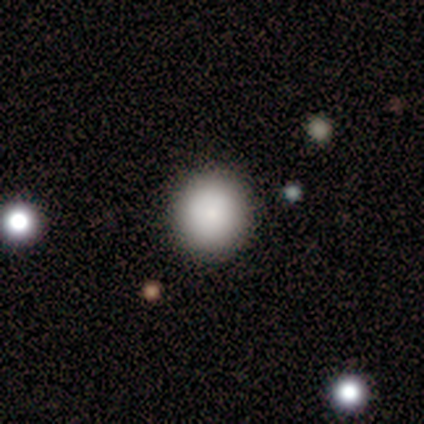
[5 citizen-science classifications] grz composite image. It shows a smooth galaxy with no disk features (60%) that is round (100%). Merging: none (100%).